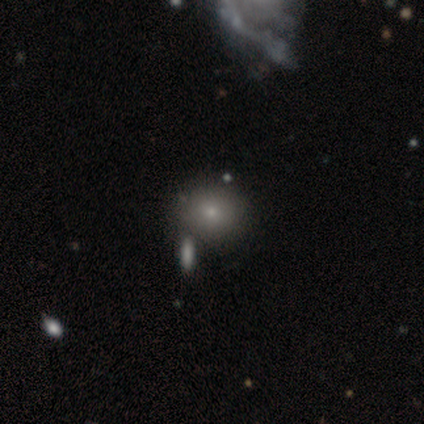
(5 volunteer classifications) Overall: featured or disk (60%; smooth 40%). Edge-on disk: no (100%). Bar: no (100%). Spiral arms: no (100%). Bulge size: small (67%; moderate 33%). Merging: none (60%; minor disturbance 40%).